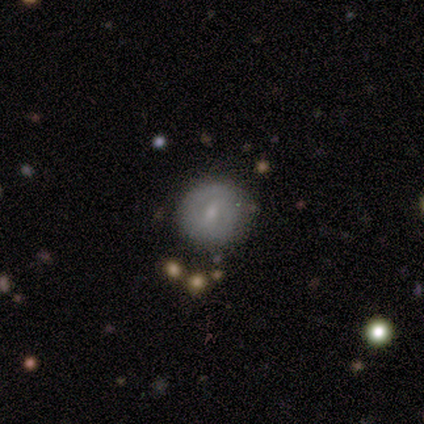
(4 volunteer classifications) Smooth or featured: featured or disk — 75% (smooth — 25%)
Edge-on disk: no — 100%
Bar: weak — 67% (no — 33%)
Spiral arms: no — 67% (yes — 33%)
Bulge size: small — 67% (moderate — 33%)
Merging: none — 75% (minor disturbance — 25%)